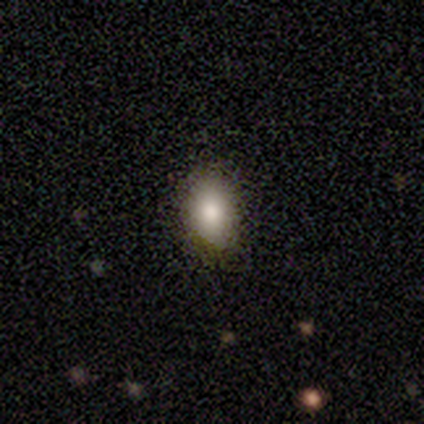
Q: Smooth or featured?
A: smooth (91%); runner-up: featured or disk (6%)
Q: How rounded?
A: in between (72%); runner-up: round (25%)
Q: Merging?
A: none (94%); runner-up: minor disturbance (6%)